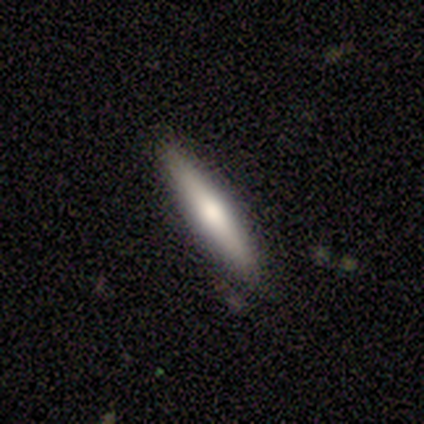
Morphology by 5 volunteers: This is likely a smooth galaxy (60%). How rounded: clearly cigar-shaped (100%). Merging: clearly none (100%).